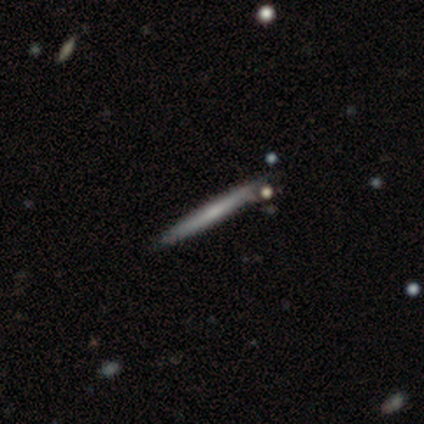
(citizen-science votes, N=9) Smooth or featured?
  - featured or disk: 67% *
  - smooth: 22%
  - star or artifact: 11%
Edge-on disk?
  - yes: 100% *
  - no: 0%
Edge-on bulge?
  - none: 67% *
  - boxy: 17%
  - rounded: 17%
Merging?
  - none: 62% *
  - minor disturbance: 25%
  - merger: 12%
  - major disturbance: 0%